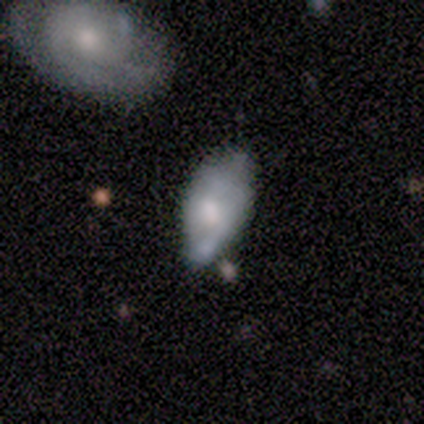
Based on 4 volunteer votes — featured or disk 100%, smooth 0%, star or artifact 0%. Down the decision tree: edge-on disk — no (100%); bar — weak (50%, tied with no); spiral arms — yes (50%, tied with no); spiral arm count — 1 (50%, tied with 2); spiral winding — tight (50%, tied with loose); bulge size — moderate (75%); merging — minor disturbance (50%).